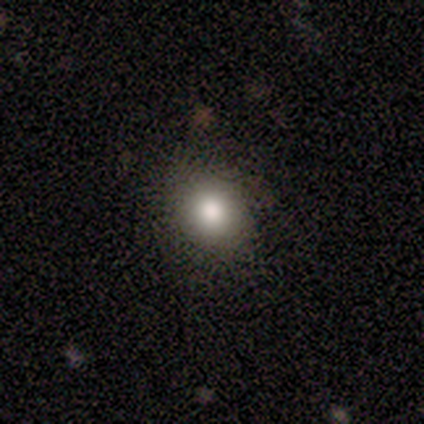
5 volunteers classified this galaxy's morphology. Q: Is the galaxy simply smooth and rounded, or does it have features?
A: smooth — 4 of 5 (80%).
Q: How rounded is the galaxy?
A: round — 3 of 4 (75%).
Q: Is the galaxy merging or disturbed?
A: none — 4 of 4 (100%).